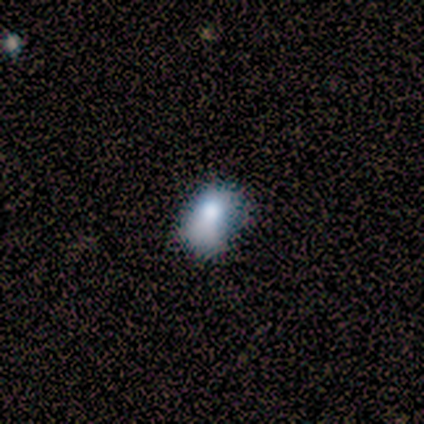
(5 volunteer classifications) Q: Smooth or featured?
A: smooth (100%)
Q: How rounded?
A: in between (80%); runner-up: round (20%)
Q: Merging?
A: minor disturbance (60%); runner-up: none (40%)